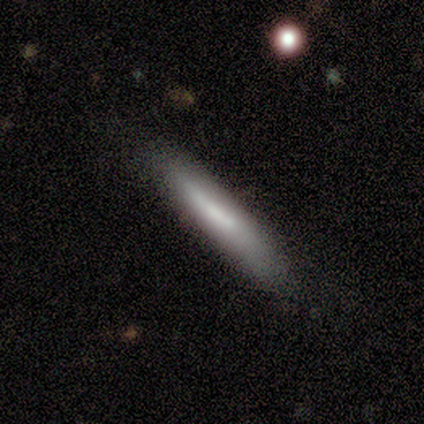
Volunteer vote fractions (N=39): Smooth or featured: smooth — 62% (featured or disk — 33%)
How rounded: cigar-shaped — 96% (in between — 4%)
Merging: none — 51% (minor disturbance — 35%)